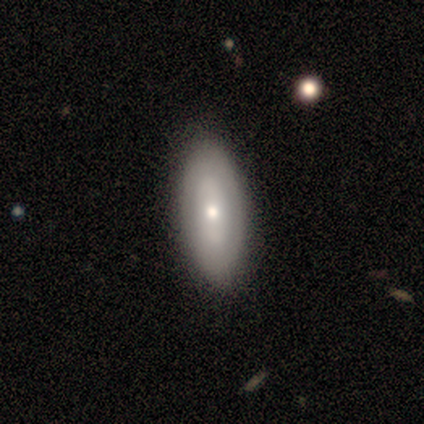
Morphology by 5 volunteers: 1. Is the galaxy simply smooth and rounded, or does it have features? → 80% smooth, 20% featured or disk, 0% star or artifact.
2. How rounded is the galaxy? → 75% in between, 25% round, 0% cigar-shaped.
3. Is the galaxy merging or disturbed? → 100% none, 0% minor disturbance, 0% major disturbance, 0% merger.